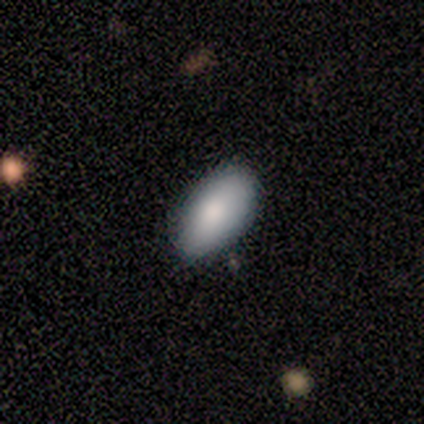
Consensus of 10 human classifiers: Overall: smooth (90%). How rounded: in between (100%). Merging: none (100%).